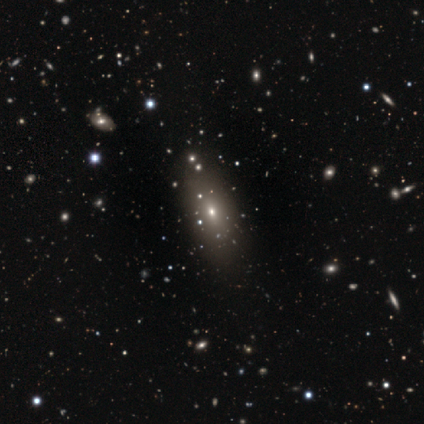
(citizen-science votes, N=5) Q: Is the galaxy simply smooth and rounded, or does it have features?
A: smooth — 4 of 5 (80%).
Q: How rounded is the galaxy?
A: in between — 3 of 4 (75%).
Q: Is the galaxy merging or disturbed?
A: none — 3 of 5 (60%).